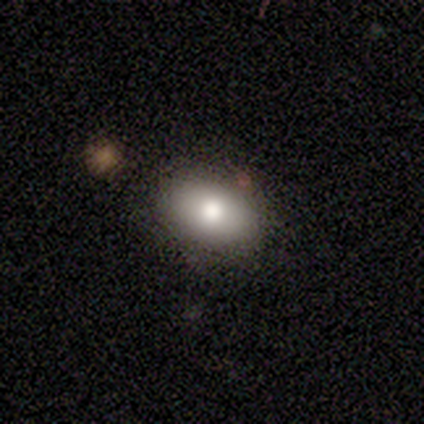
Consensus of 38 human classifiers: A smooth galaxy with no disk features (76%) that is in between round and cigar-shaped (72%). Merging: none (88%).